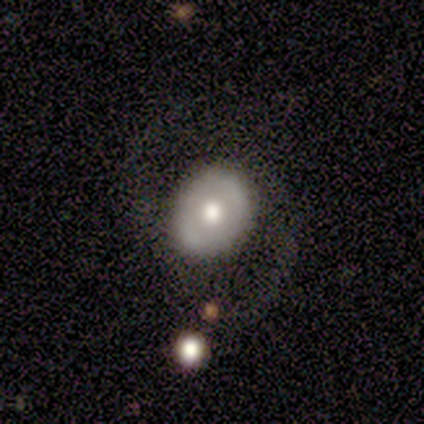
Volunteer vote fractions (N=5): This appears to be a featured or disk galaxy (60%) with no bar (67%), no spiral arms (67%) and a moderate central bulge (67%). Merging: none (100%).